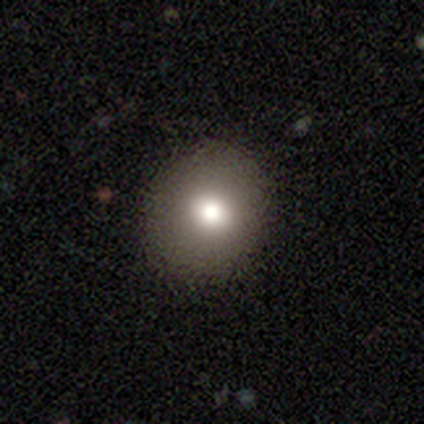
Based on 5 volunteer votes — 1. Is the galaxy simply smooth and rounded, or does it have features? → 80% smooth, 20% featured or disk, 0% star or artifact.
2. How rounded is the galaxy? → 75% round, 25% in between, 0% cigar-shaped.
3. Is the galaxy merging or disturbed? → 100% none, 0% minor disturbance, 0% major disturbance, 0% merger.